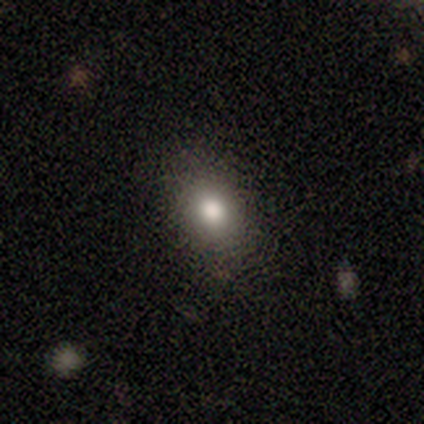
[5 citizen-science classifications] This appears to be a smooth galaxy with no disk features (80%) that is in between round and cigar-shaped (75%). Merging: none (100%).